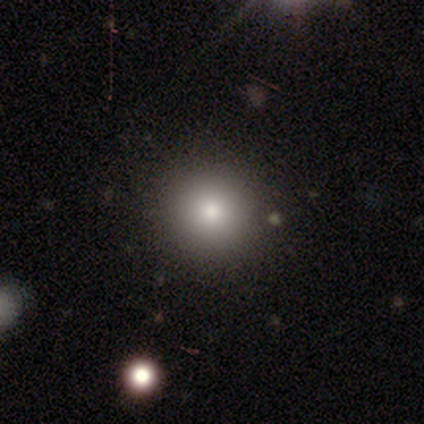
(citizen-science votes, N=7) smooth-or-featured: smooth: 71% | star or artifact: 29% | featured or disk: 0%
  how-rounded: round: 80% | in between: 20% | cigar-shaped: 0%
  merging: none: 100% | minor disturbance: 0% | major disturbance: 0% | merger: 0%